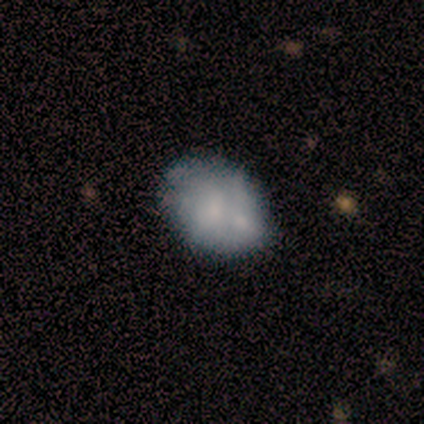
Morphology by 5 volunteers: A smooth galaxy with no disk features (60%) that is in between round and cigar-shaped (67%). Merging: minor disturbance (50%).